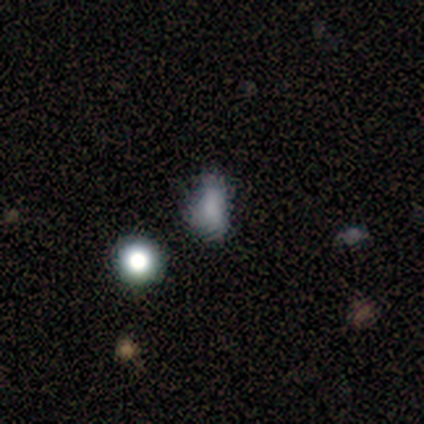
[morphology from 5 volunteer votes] Q: Smooth or featured?
A: smooth (80%); runner-up: star or artifact (20%)
Q: How rounded?
A: in between (75%); runner-up: cigar-shaped (25%)
Q: Merging?
A: none (50%); runner-up: minor disturbance (25%)